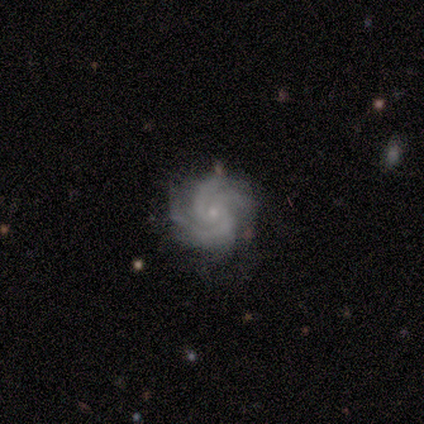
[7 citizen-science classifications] Overall: featured or disk (100%). Edge-on disk: no (100%). Bar: no (100%). Spiral arms: yes (100%). Spiral arm count: 4 (43%; 3 29%). Spiral winding: tight (86%). Bulge size: small (86%). Merging: none (71%).